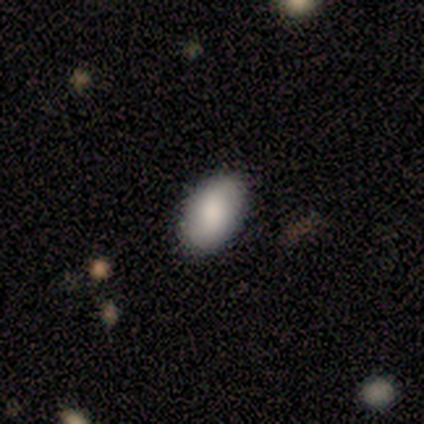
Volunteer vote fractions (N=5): smooth-or-featured: smooth: 80% | featured or disk: 20% | star or artifact: 0%
  how-rounded: in between: 100% | round: 0% | cigar-shaped: 0%
  merging: none: 80% | minor disturbance: 20% | major disturbance: 0% | merger: 0%